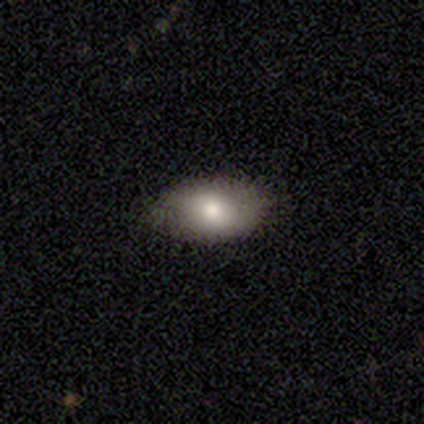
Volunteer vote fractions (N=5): smooth_or_featured: smooth (p=0.80) [alt: featured or disk p=0.20]
how_rounded: in between (p=1.00)
merging: none (p=0.60) [alt: minor disturbance p=0.40]